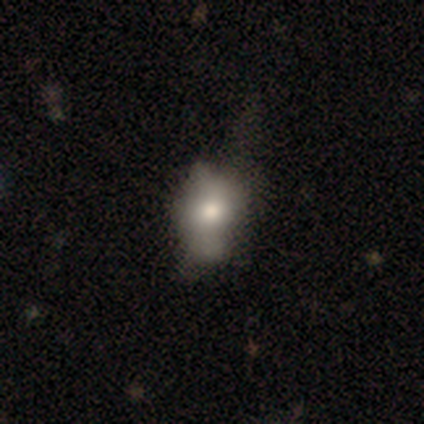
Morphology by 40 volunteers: Q: Smooth or featured?
A: smooth (50%); runner-up: featured or disk (40%)
Q: How rounded?
A: in between (80%); runner-up: round (20%)
Q: Merging?
A: none (25%); runner-up: major disturbance (22%)